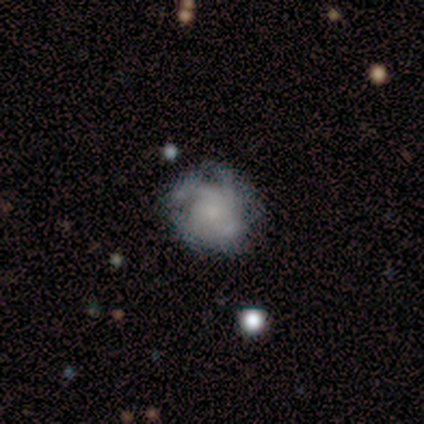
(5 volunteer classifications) A featured or disk galaxy (80%) with no bar (75%), 3 (50%) medium (50%) spiral arms (100%) and a large central bulge (25%, tied with moderate, small and none).

Vote fractions:
- Smooth or featured? featured or disk: 80% / smooth: 20% / star or artifact: 0%
- Edge-on disk? no: 100% / yes: 0%
- Bar? no: 75% / strong: 25% / weak: 0%
- Spiral arms? yes: 100% / no: 0%
- Spiral winding? medium: 50% / tight: 25% / loose: 25%
- Spiral arm count? 3: 50% / 2: 25% / can't tell: 25% / 1: 0% / 4: 0% / more than 4: 0%
- Bulge size? large: 25% (tied) / moderate: 25% (tied) / small: 25% (tied) / none: 25% (tied) / dominant: 0%
- Merging? none: 80% / minor disturbance: 20% / major disturbance: 0% / merger: 0%